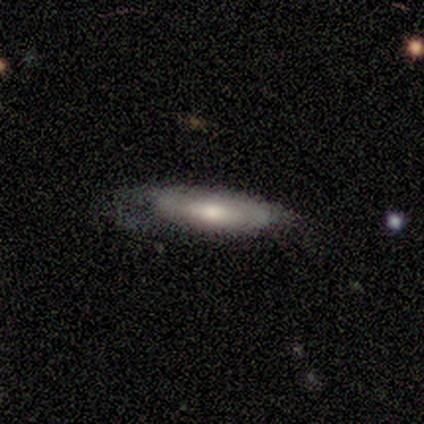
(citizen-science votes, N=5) smooth_or_featured: smooth (p=0.60) [alt: featured or disk p=0.40]
how_rounded: in between (p=0.67) [alt: cigar-shaped p=0.33]
merging: none (p=0.60) [alt: minor disturbance p=0.20]